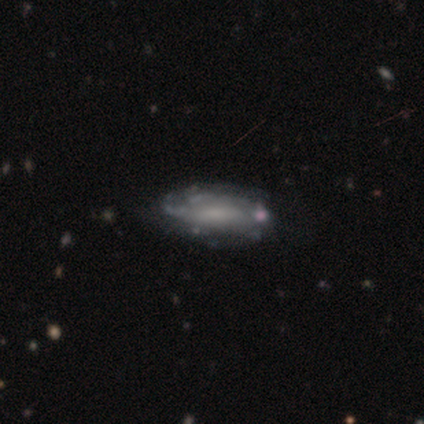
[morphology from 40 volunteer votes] Overall: featured or disk (70%). Edge-on disk: no (93%). Bar: no (50%; weak 42%). Spiral arms: yes (77%). Spiral arm count: can't tell (90%). Spiral winding: tight (45%, tied with medium). Bulge size: none (54%; small 31%). Merging: none (51%; minor disturbance 22%).